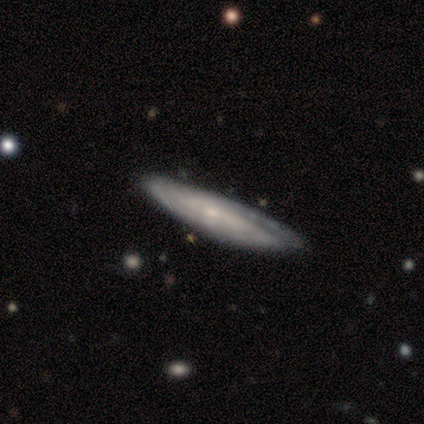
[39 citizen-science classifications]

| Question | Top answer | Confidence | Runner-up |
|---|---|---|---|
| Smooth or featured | featured or disk | 67% | smooth (31%) |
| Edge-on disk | yes | 62% | no (38%) |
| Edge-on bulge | none | 62% | rounded (25%) |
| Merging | none | 74% | minor disturbance (18%) |